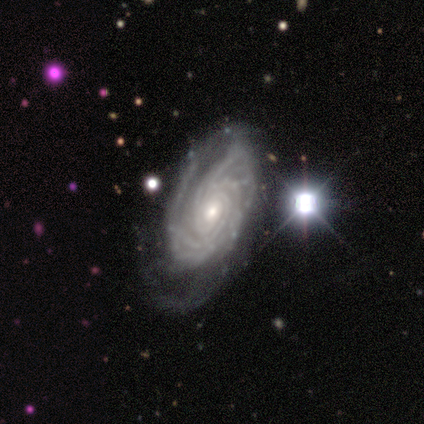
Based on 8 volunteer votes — Volunteers were most divided on "spiral arm count": more than 4: 43%, 3: 29%, can't tell: 29%, 1: 0%, 2: 0%, 4: 0%. More confident: smooth or featured — featured or disk (100%); bar — no (100%); spiral arms — yes (100%); spiral winding — tight (100%); edge-on disk — no (88%); merging — none (62%); bulge size — small (57%).